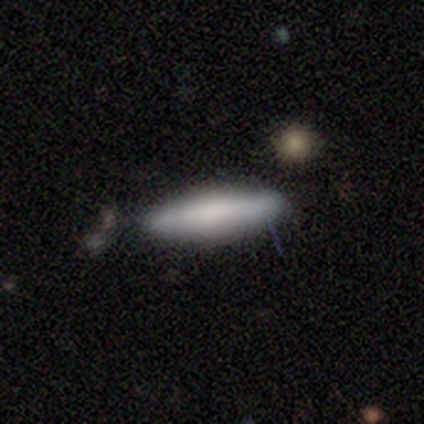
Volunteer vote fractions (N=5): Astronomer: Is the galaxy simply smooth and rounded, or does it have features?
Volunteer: smooth — 80%.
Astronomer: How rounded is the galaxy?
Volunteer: cigar-shaped — 75%.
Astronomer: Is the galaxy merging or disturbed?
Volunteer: none — 100%.